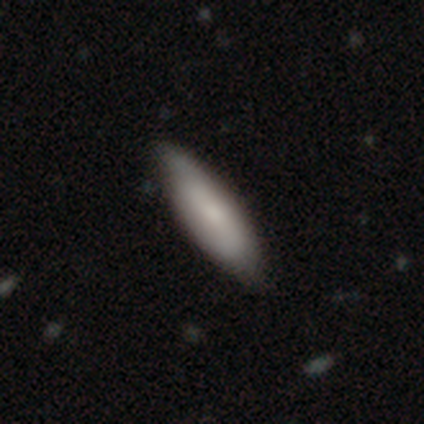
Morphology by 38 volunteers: smooth_or_featured: smooth (p=0.79) [alt: featured or disk p=0.18]
how_rounded: in between (p=0.57) [alt: cigar-shaped p=0.40]
merging: none (p=0.46) [alt: minor disturbance p=0.14]